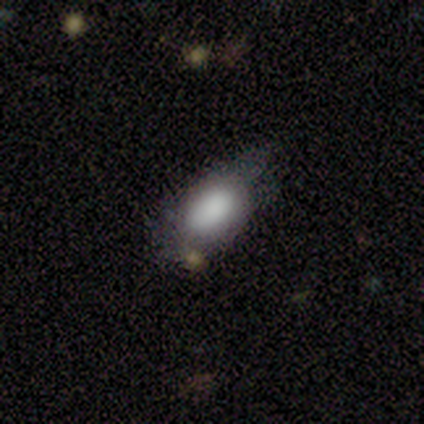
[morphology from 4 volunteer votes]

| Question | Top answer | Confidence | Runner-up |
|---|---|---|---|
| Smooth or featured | smooth | 75% | star or artifact (25%) |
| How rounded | in between | 67% | round (33%) |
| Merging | none | 33% | tied: minor disturbance (33%), merger (33%) |